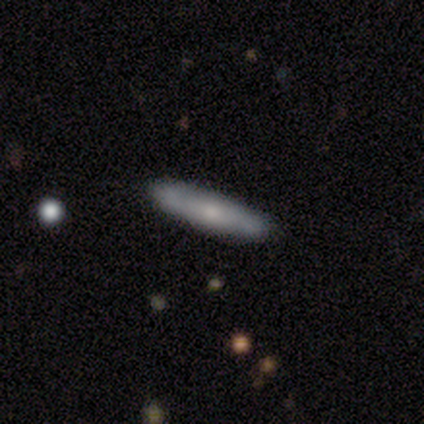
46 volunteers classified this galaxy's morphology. Volunteers were most divided on "smooth or featured": smooth: 57%, featured or disk: 37%, star or artifact: 7%. More confident: merging — none (88%); how rounded — cigar-shaped (81%).